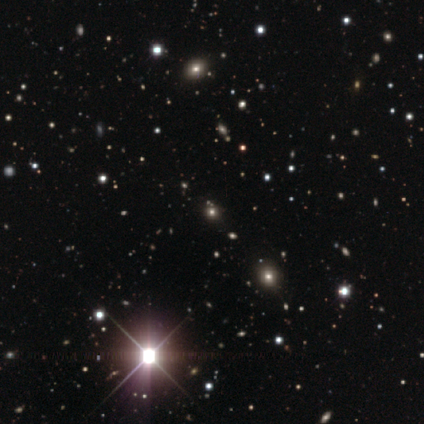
Smooth or featured? star or artifact (80%)